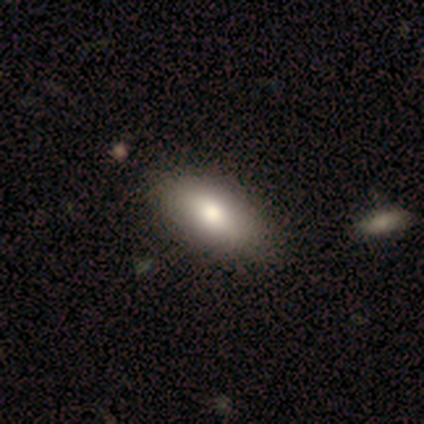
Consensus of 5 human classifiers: This is likely a smooth galaxy (60%). How rounded: clearly in between (100%). Merging: likely none (60%).